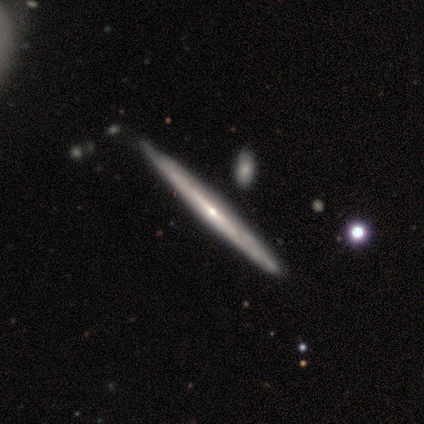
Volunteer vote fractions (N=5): Q: Smooth or featured?
A: featured or disk (80%); runner-up: smooth (20%)
Q: Edge-on disk?
A: yes (100%)
Q: Edge-on bulge?
A: none (50%); tied with: rounded (50%)
Q: Merging?
A: none (80%); runner-up: minor disturbance (20%)